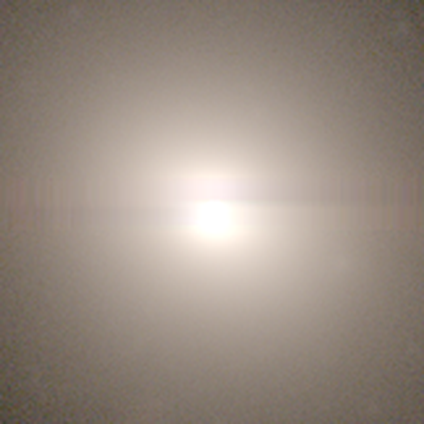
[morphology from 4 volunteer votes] Smooth or featured: star or artifact — 75% (smooth — 25%)